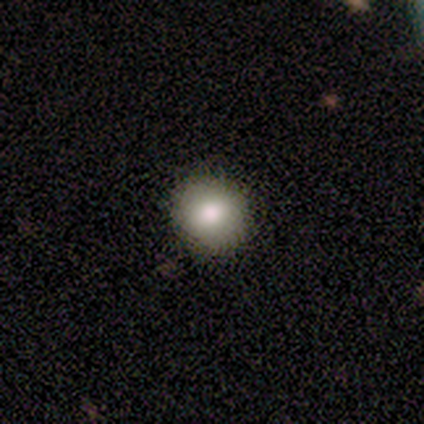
Smooth or featured?
  - smooth: 100% *
  - featured or disk: 0%
  - star or artifact: 0%
How rounded?
  - round: 100% *
  - in between: 0%
  - cigar-shaped: 0%
Merging?
  - none: 80% *
  - minor disturbance: 20%
  - major disturbance: 0%
  - merger: 0%